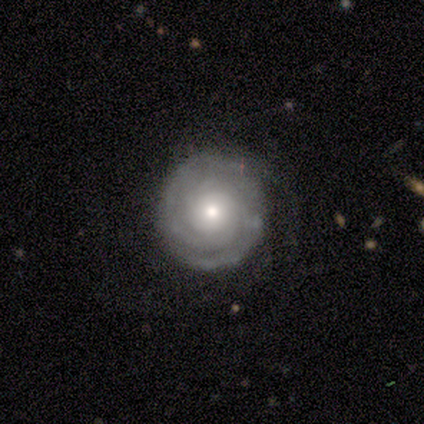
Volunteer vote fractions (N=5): A featured or disk galaxy (80%) with no bar (100%), tight (50%) spiral arms (100%) and a moderate central bulge (50%, tied with small).

Vote fractions:
- Smooth or featured? featured or disk: 80% / smooth: 20% / star or artifact: 0%
- Edge-on disk? no: 100% / yes: 0%
- Bar? no: 100% / strong: 0% / weak: 0%
- Spiral arms? yes: 100% / no: 0%
- Spiral winding? tight: 50% / medium: 25% / loose: 25%
- Spiral arm count? can't tell: 50% / 3: 25% / 4: 25% / 1: 0% / 2: 0% / more than 4: 0%
- Bulge size? moderate: 50% (tied) / small: 50% (tied) / dominant: 0% / large: 0% / none: 0%
- Merging? none: 60% / minor disturbance: 40% / major disturbance: 0% / merger: 0%